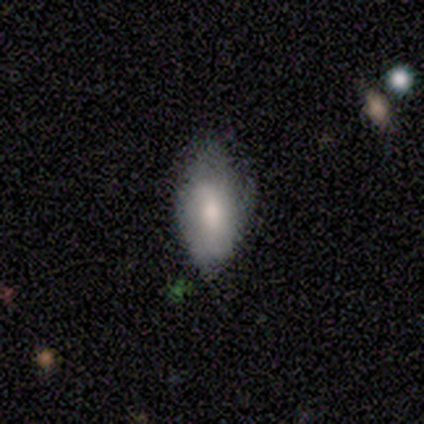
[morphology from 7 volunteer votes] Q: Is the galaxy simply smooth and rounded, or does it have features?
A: smooth — 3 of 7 (43%, tied with featured or disk).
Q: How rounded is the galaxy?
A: in between — 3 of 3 (100%).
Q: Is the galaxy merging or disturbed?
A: none — 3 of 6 (50%).